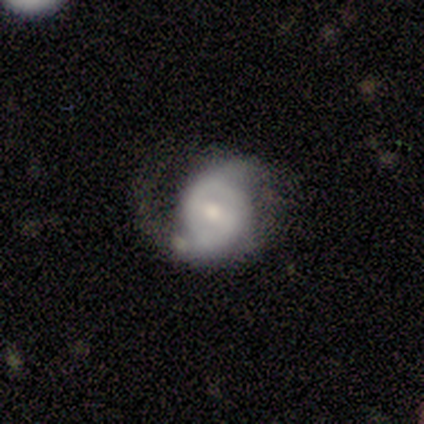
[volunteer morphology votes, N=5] A featured or disk galaxy (100%) with a weak bar (80%), 2 (75%) loose (75%) spiral arms (80%) and a moderate central bulge (60%).

Vote fractions:
- Smooth or featured? featured or disk: 100% / smooth: 0% / star or artifact: 0%
- Edge-on disk? no: 100% / yes: 0%
- Bar? weak: 80% / no: 20% / strong: 0%
- Spiral arms? yes: 80% / no: 20%
- Spiral winding? loose: 75% / tight: 25% / medium: 0%
- Spiral arm count? 2: 75% / can't tell: 25% / 1: 0% / 3: 0% / 4: 0% / more than 4: 0%
- Bulge size? moderate: 60% / small: 20% / none: 20% / dominant: 0% / large: 0%
- Merging? none: 40% (tied) / minor disturbance: 40% (tied) / major disturbance: 20% / merger: 0%